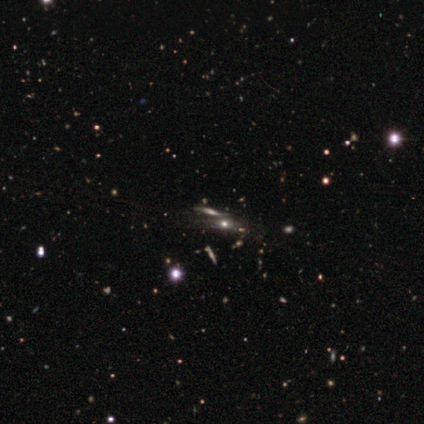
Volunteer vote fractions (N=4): Overall: featured or disk (50%; smooth 25%). Edge-on disk: yes (100%). Edge-on bulge: rounded (100%). Merging: none (67%; merger 33%).